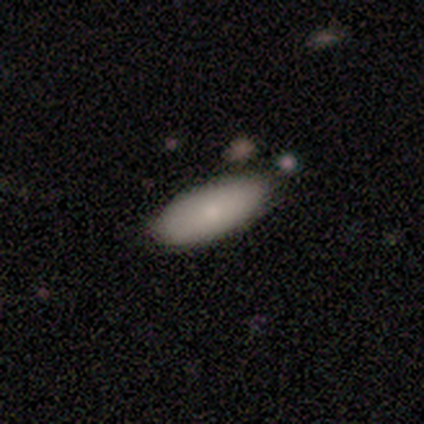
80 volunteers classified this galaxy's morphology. A smooth galaxy with no disk features (86%) that is in between round and cigar-shaped (81%). Merging: none (85%).